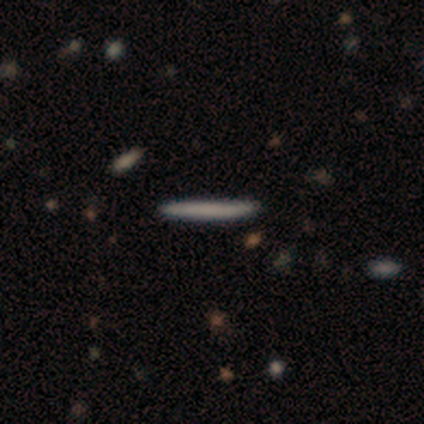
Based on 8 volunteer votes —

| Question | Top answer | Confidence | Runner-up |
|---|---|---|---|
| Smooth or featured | smooth | 75% | featured or disk (12%) |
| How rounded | cigar-shaped | 100% | — |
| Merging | none | 100% | — |